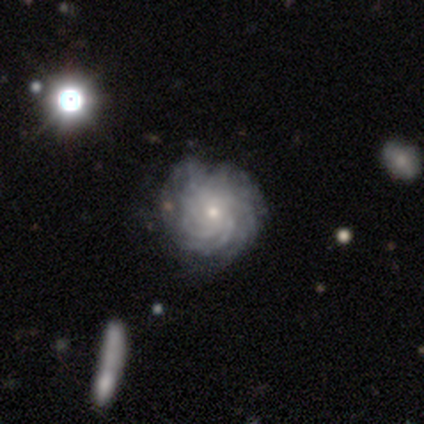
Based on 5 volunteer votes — smooth-or-featured: featured or disk: 100% | smooth: 0% | star or artifact: 0%
  disk-edge-on: no: 100% | yes: 0%
    bar: no: 100% | strong: 0% | weak: 0%
    has-spiral-arms: yes: 100% | no: 0%
      spiral-winding: tight: 80% | medium: 20% | loose: 0%
      spiral-arm-count: can't tell: 60% | more than 4: 40% | 1: 0% | 2: 0% | 3: 0% | 4: 0%
    bulge-size: small: 80% | moderate: 20% | dominant: 0% | large: 0% | none: 0%
  merging: minor disturbance: 60% | none: 40% | major disturbance: 0% | merger: 0%